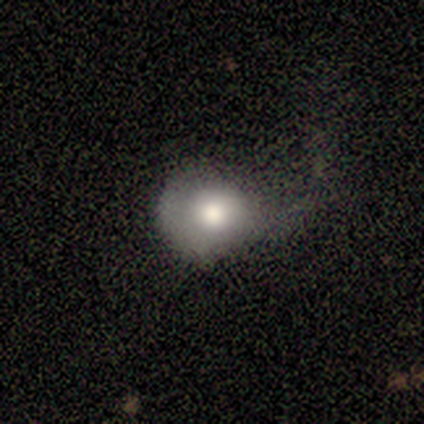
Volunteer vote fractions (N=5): Smooth or featured? smooth (100%)
How rounded? round (100%)
Merging? none (40%, tied with major disturbance)